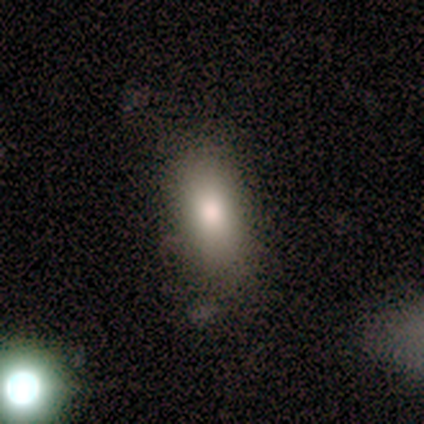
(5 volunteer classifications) smooth-or-featured: smooth: 80% | star or artifact: 20% | featured or disk: 0%
  how-rounded: in between: 75% | cigar-shaped: 25% | round: 0%
  merging: none: 100% | minor disturbance: 0% | major disturbance: 0% | merger: 0%